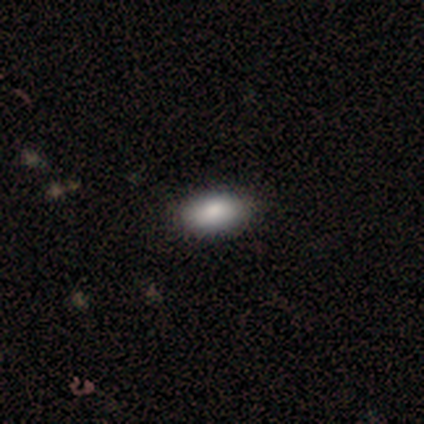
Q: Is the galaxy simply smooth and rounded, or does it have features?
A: smooth — 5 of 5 (100%).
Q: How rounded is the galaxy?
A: in between — 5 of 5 (100%).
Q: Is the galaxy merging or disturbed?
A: none — 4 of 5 (80%).